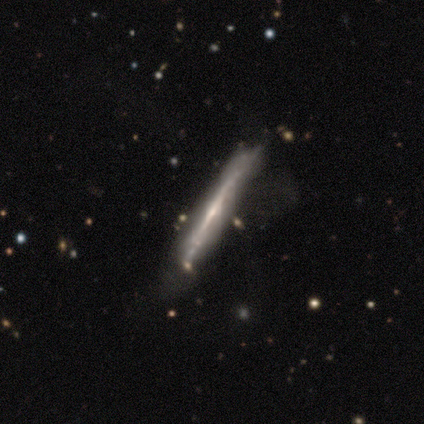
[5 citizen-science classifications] Smooth or featured? 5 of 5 (100%) said featured or disk. Edge-on disk? 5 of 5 (100%) said yes. Edge-on bulge? 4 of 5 (80%) said none. Merging? 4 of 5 (80%) said none.